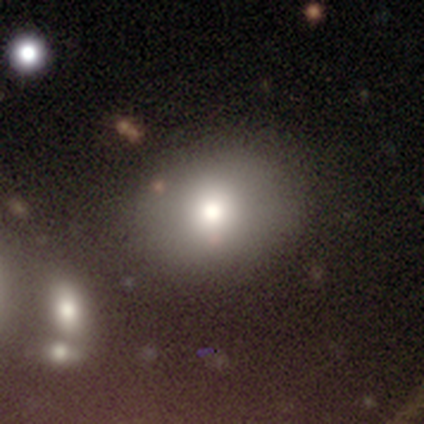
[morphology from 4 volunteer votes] type=smooth (50%); roundness=round (50%, tied with in between); merging=none (100%).